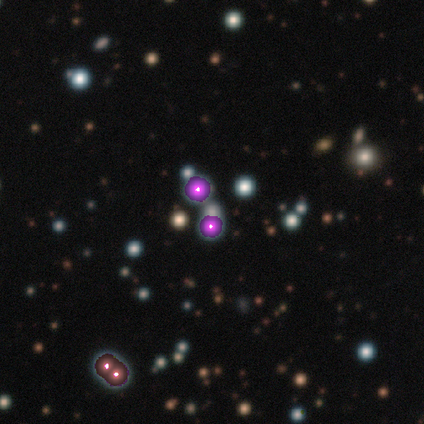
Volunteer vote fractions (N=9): Overall: star or artifact (89%).